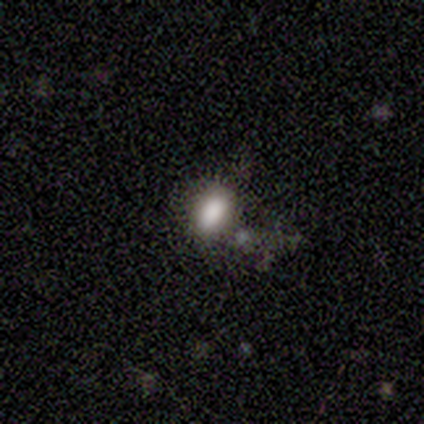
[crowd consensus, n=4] Smooth or featured: smooth — 50% (featured or disk — 25%)
How rounded: in between — 100%
Merging: none — 67% (merger — 33%)